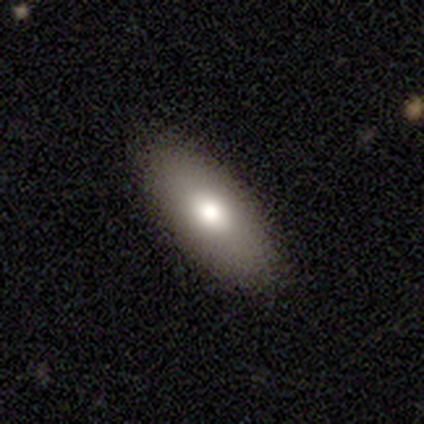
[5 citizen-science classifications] smooth-or-featured: featured or disk: 60% | smooth: 40% | star or artifact: 0%
  disk-edge-on: no: 100% | yes: 0%
    bar: no: 100% | strong: 0% | weak: 0%
    has-spiral-arms: no: 100% | yes: 0%
    bulge-size: large: 67% | moderate: 33% | dominant: 0% | small: 0% | none: 0%
  merging: none: 80% | minor disturbance: 20% | major disturbance: 0% | merger: 0%